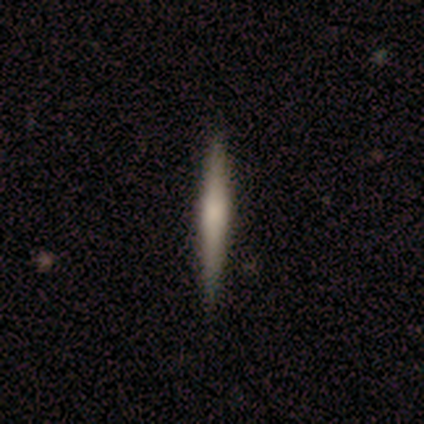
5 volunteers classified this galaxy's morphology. smooth_or_featured: featured or disk (p=0.80) [alt: smooth p=0.20]
disk_edge_on: yes (p=1.00)
edge_on_bulge: boxy (p=0.50) [tied with: rounded p=0.50]
merging: none (p=0.80) [alt: minor disturbance p=0.20]